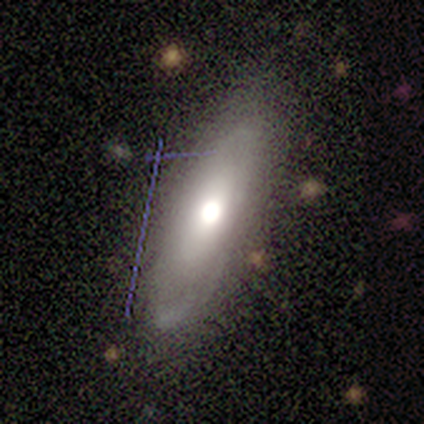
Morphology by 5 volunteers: Smooth or featured? smooth (60%)
How rounded? in between (67%)
Merging? none (80%)